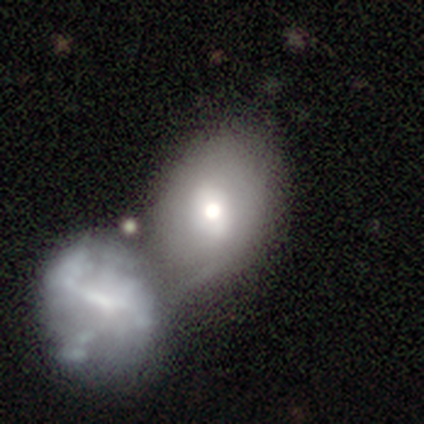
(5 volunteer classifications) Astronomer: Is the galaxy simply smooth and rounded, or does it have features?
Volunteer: smooth — 40%, tied with featured or disk at 40%.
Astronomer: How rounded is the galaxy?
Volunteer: round — 100%.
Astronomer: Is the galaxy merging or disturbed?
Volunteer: merger — 100%.